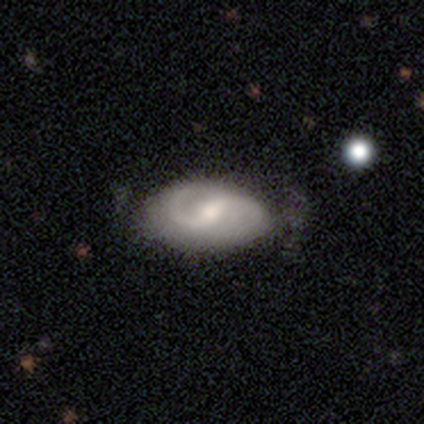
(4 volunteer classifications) This is clearly a featured or disk galaxy (100%). It is clearly not viewed edge-on (100%). Bar: possibly strong (50%, tied with weak). Spiral arm pattern: clearly yes (100%). Spiral arm count: clearly 2 (100%). Spiral winding: possibly medium (50%). Central bulge: clearly moderate (100%). Merging: possibly none (50%, tied with minor disturbance).